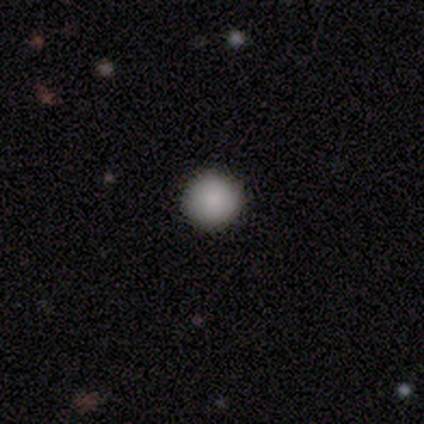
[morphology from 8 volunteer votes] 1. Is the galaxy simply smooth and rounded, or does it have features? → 88% smooth, 12% star or artifact, 0% featured or disk.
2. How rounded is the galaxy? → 100% round, 0% in between, 0% cigar-shaped.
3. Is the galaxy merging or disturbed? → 100% none, 0% minor disturbance, 0% major disturbance, 0% merger.